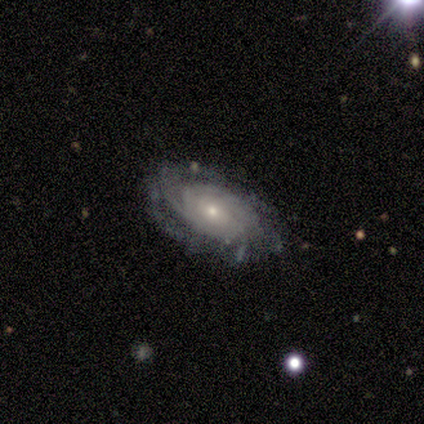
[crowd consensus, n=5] A featured or disk galaxy (100%) with no bar (80%), tight (80%) spiral arms (100%) and a small central bulge (60%). Merging: none (100%).